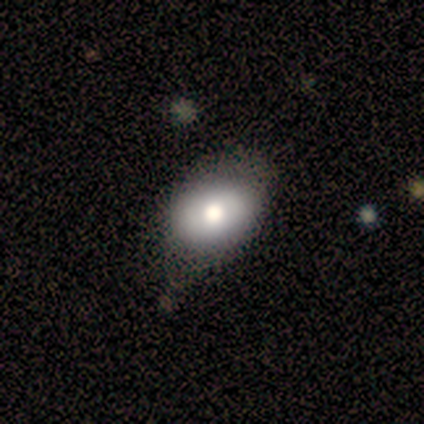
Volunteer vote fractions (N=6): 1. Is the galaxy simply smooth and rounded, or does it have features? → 50% featured or disk, 33% smooth, 17% star or artifact.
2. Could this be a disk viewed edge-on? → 67% no, 33% yes.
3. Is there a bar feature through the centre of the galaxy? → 100% no, 0% strong, 0% weak.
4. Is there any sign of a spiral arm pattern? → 100% no, 0% yes.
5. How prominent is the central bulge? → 50% large (tied), 50% moderate (tied), 0% dominant, 0% small, 0% none.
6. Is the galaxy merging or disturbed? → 60% none, 20% minor disturbance, 20% major disturbance, 0% merger.